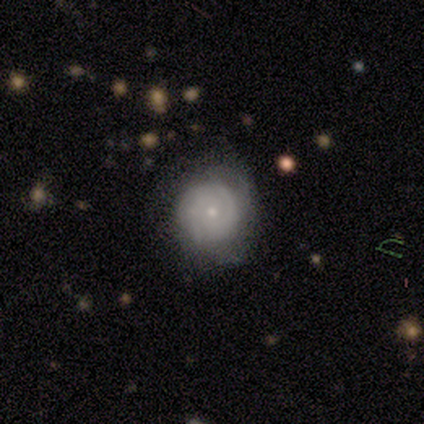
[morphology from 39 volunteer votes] A featured or disk galaxy (69%) with no bar (84%), tight (87%) spiral arms (92%) and a small central bulge (88%). Merging: none (76%).